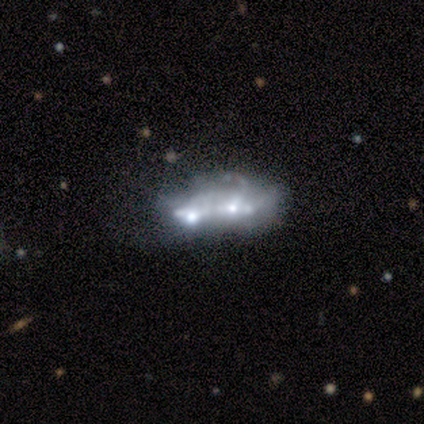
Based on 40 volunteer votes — Q: Smooth or featured?
A: featured or disk (70%); runner-up: smooth (18%)
Q: Edge-on disk?
A: no (100%)
Q: Bar?
A: no (89%); runner-up: weak (7%)
Q: Spiral arms?
A: no (93%); runner-up: yes (7%)
Q: Bulge size?
A: none (39%); runner-up: small (36%)
Q: Merging?
A: merger (46%); runner-up: none (31%)